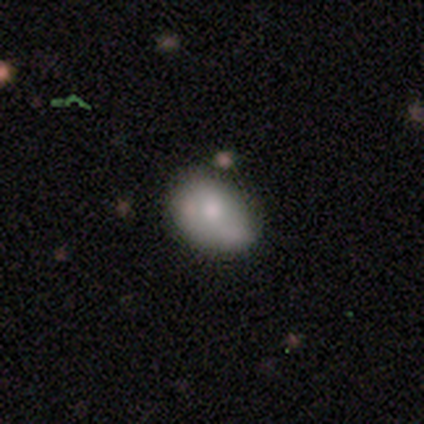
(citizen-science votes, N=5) A smooth galaxy with no disk features (60%) that is in between round and cigar-shaped (100%).

Vote fractions:
- Smooth or featured? smooth: 60% / featured or disk: 40% / star or artifact: 0%
- How rounded? in between: 100% / round: 0% / cigar-shaped: 0%
- Merging? none: 60% / minor disturbance: 20% / merger: 20% / major disturbance: 0%